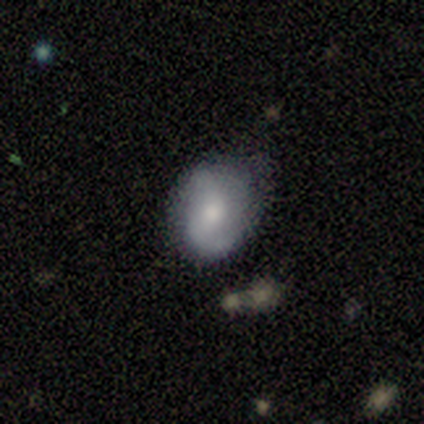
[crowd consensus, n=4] smooth-or-featured: featured or disk: 75% | smooth: 25% | star or artifact: 0%
  disk-edge-on: no: 100% | yes: 0%
    bar: weak: 67% | strong: 33% | no: 0%
    has-spiral-arms: yes: 67% | no: 33%
      spiral-winding: medium: 100% | tight: 0% | loose: 0%
      spiral-arm-count: 2: 100% | 1: 0% | 3: 0% | 4: 0% | more than 4: 0% | can't tell: 0%
    bulge-size: moderate: 67% | large: 33% | dominant: 0% | small: 0% | none: 0%
  merging: none: 50% | minor disturbance: 25% | major disturbance: 25% | merger: 0%